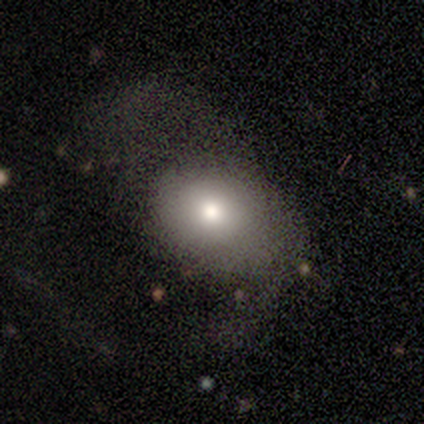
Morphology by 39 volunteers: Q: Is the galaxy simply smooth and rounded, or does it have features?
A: smooth — 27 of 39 (69%).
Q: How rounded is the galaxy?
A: round — 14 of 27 (52%).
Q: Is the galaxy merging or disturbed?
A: none — 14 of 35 (40%, tied with major disturbance).